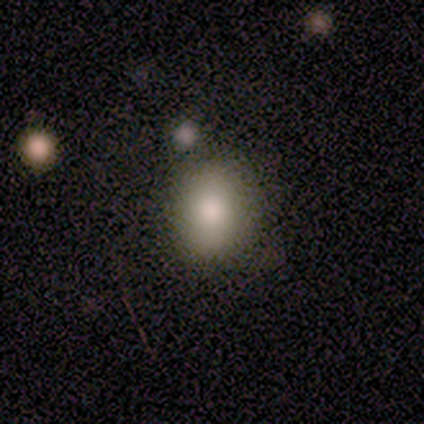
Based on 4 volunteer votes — Morphology: type=smooth (75%); roundness=in between (67%); merging=none (100%).